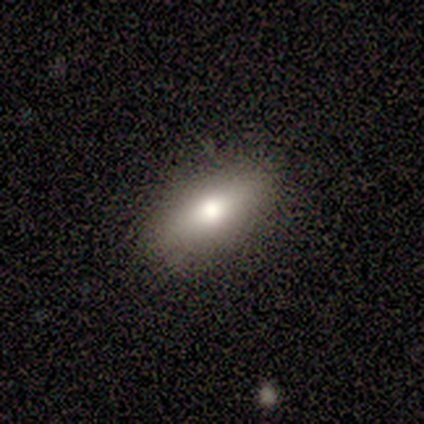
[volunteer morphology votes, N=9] featured or disk 44%, smooth 33%, star or artifact 22%. Down the decision tree: edge-on disk — yes (50%, tied with no); edge-on bulge — rounded (100%); merging — none (100%).